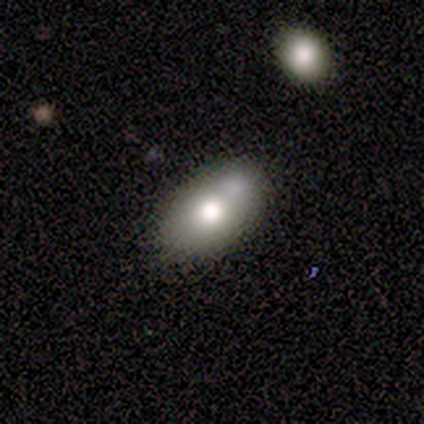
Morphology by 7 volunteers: smooth-or-featured: smooth: 100% | featured or disk: 0% | star or artifact: 0%
  how-rounded: in between: 71% | round: 29% | cigar-shaped: 0%
  merging: none: 100% | minor disturbance: 0% | major disturbance: 0% | merger: 0%